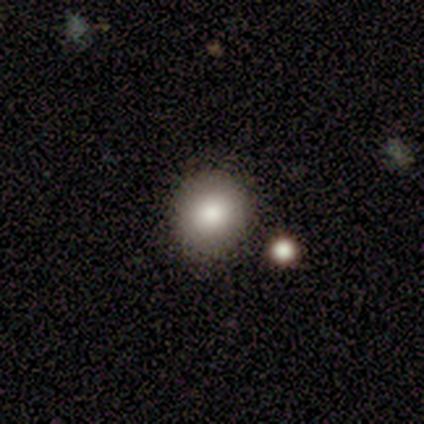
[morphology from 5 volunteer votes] This appears to be a smooth galaxy with no disk features (60%) that is round (100%). Merging: none (40%, tied with minor disturbance).